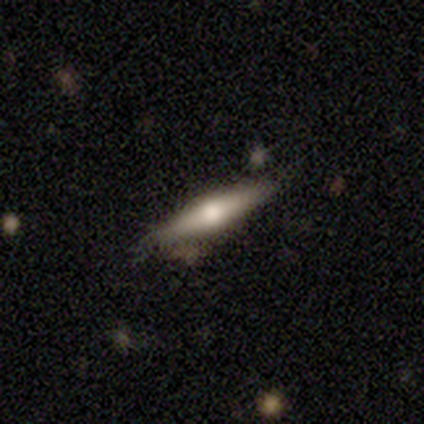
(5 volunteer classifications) Morphology: type=featured or disk (40%, tied with star or artifact); edge-on=yes (100%); edge-on bulge=rounded (100%); merging=none (67%).